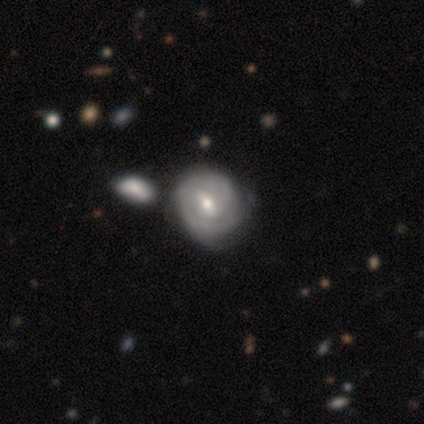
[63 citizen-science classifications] A featured or disk galaxy (65%) with a weak bar (54%), tight (72%) spiral arms (78%) and a moderate central bulge (63%).

Vote fractions:
- Smooth or featured? featured or disk: 65% / smooth: 30% / star or artifact: 5%
- Edge-on disk? no: 100% / yes: 0%
- Bar? weak: 54% / no: 27% / strong: 20%
- Spiral arms? yes: 78% / no: 22%
- Spiral winding? tight: 72% / medium: 16% / loose: 12%
- Spiral arm count? can't tell: 50% / 2: 28% / 3: 16% / 1: 6% / 4: 0% / more than 4: 0%
- Bulge size? moderate: 63% / small: 27% / large: 7% / none: 2% / dominant: 0%
- Merging? none: 47% / minor disturbance: 38% / merger: 15% / major disturbance: 0%